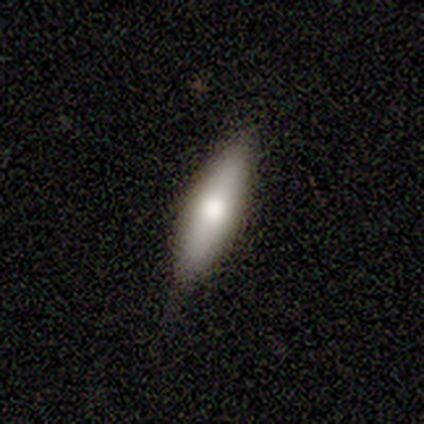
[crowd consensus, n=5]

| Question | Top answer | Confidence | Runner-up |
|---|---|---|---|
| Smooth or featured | featured or disk | 60% | smooth (20%) |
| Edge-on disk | yes | 67% | no (33%) |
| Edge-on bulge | boxy | 50% | tied: rounded (50%) |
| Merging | none | 75% | minor disturbance (25%) |